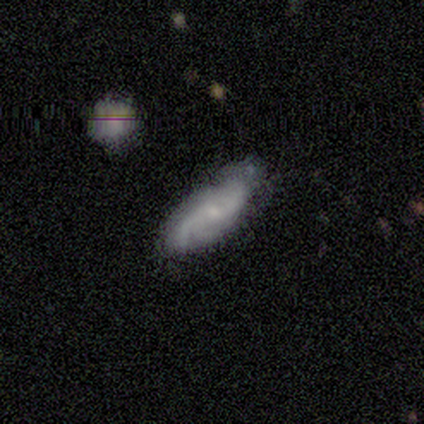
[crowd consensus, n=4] A smooth galaxy with no disk features (50%, tied with featured or disk) that is in between round and cigar-shaped (100%). Merging: none (50%, tied with minor disturbance).